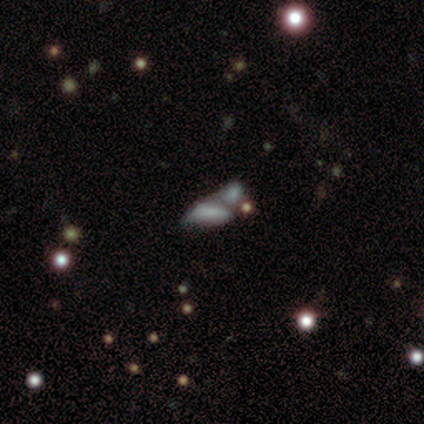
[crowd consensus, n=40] smooth_or_featured: smooth (p=0.38) [alt: star or artifact p=0.35]
how_rounded: in between (p=0.93) [alt: cigar-shaped p=0.07]
merging: merger (p=0.65) [alt: none p=0.19]